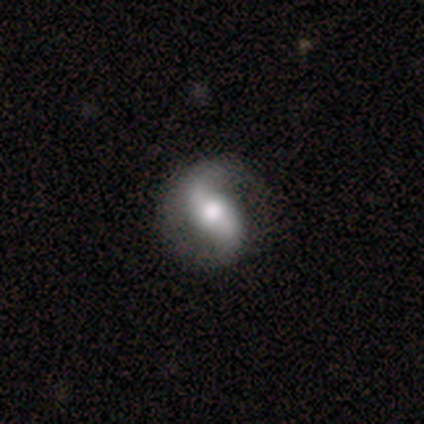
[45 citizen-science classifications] This is clearly a featured or disk galaxy (91%). It is clearly not viewed edge-on (100%). Bar: marginally weak (41%). Spiral arm pattern: clearly yes (93%). Spiral arm count: clearly 2 (92%). Spiral winding: possibly loose (55%). Central bulge: possibly moderate (59%). Merging: likely none (73%).